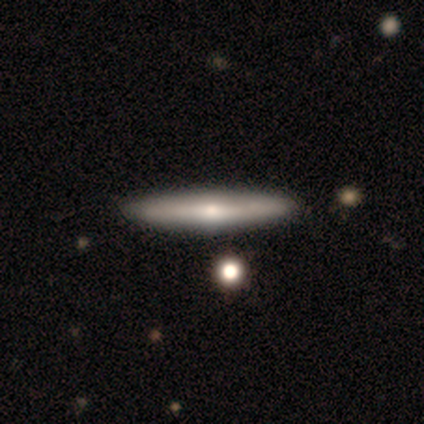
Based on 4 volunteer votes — Smooth or featured? 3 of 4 (75%) said smooth. How rounded? 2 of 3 (67%) said cigar-shaped. Merging? 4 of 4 (100%) said none.